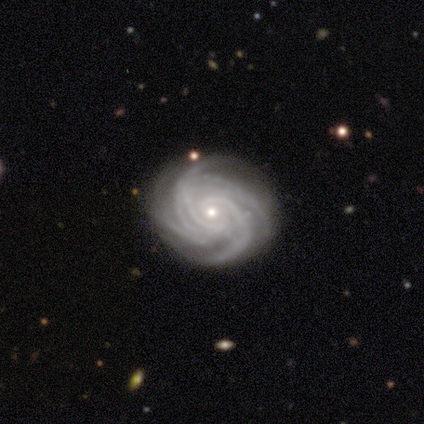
Smooth or featured? featured or disk (87%)
Edge-on disk? no (97%)
Bar? no (66%)
Spiral arms? yes (97%)
Spiral winding? tight (81%)
Spiral arm count? 4 (48%)
Bulge size? small (75%)
Merging? none (73%)